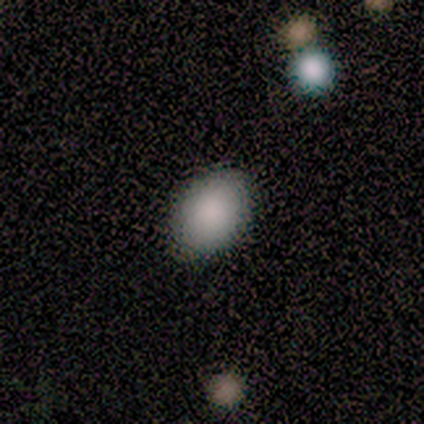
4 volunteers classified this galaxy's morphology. smooth_or_featured: smooth (p=1.00)
how_rounded: in between (p=1.00)
merging: none (p=1.00)